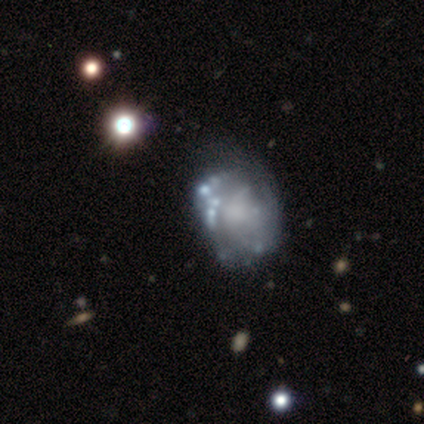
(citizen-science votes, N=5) A featured or disk galaxy (80%) with no bar (100%), no spiral arms (100%) and no central bulge (75%).

Vote fractions:
- Smooth or featured? featured or disk: 80% / star or artifact: 20% / smooth: 0%
- Edge-on disk? no: 100% / yes: 0%
- Bar? no: 100% / strong: 0% / weak: 0%
- Spiral arms? no: 100% / yes: 0%
- Bulge size? none: 75% / moderate: 25% / dominant: 0% / large: 0% / small: 0%
- Merging? none: 50% / minor disturbance: 25% / major disturbance: 25% / merger: 0%